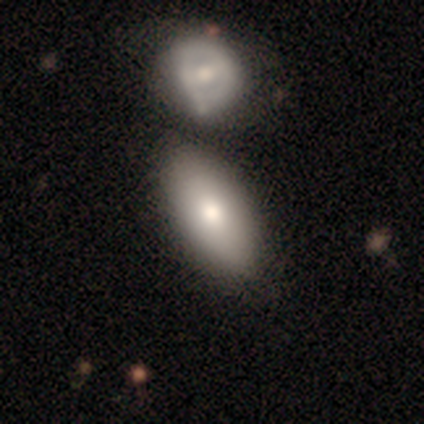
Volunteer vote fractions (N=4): Volunteers were most divided on "merging" (3-way tie): minor disturbance: 33%, major disturbance: 33%, merger: 33%, none: 0%. More confident: how rounded — in between (100%); smooth or featured — smooth (50%).